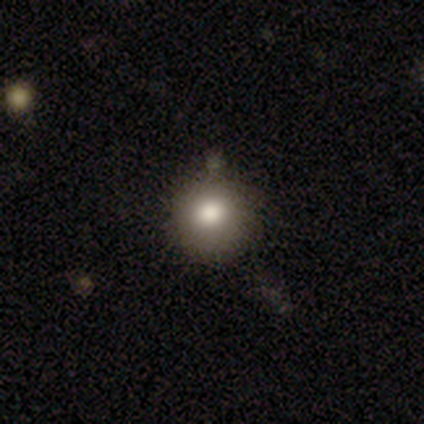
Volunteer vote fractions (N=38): Q: Smooth or featured?
A: smooth (71%); runner-up: featured or disk (18%)
Q: How rounded?
A: round (93%); runner-up: in between (7%)
Q: Merging?
A: none (94%); runner-up: minor disturbance (6%)